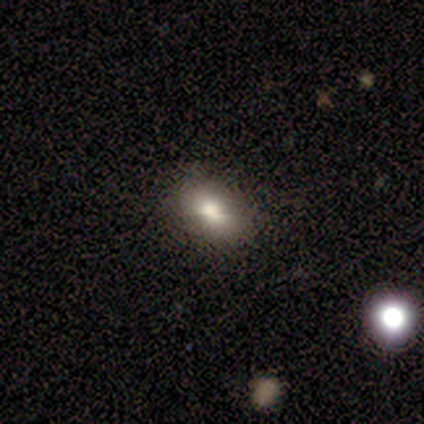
smooth 80%, star or artifact 20%, featured or disk 0%. Down the decision tree: how rounded — in between (100%); merging — none (75%).